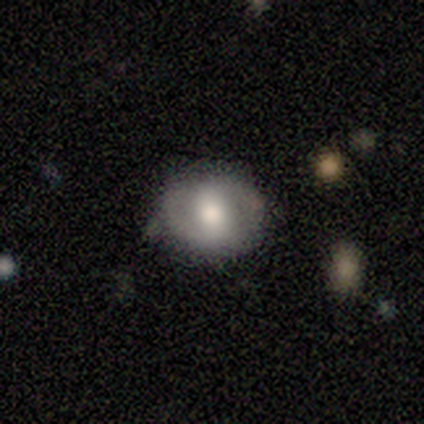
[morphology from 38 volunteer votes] Smooth or featured: featured or disk — 55% (smooth — 39%)
Edge-on disk: no — 95% (yes — 5%)
Bar: no — 40% (weak — 35%)
Spiral arms: yes — 70% (no — 30%)
Spiral winding: medium — 57% (tight — 43%)
Spiral arm count: 2 — 86% (can't tell — 14%)
Bulge size: moderate — 70% (large — 25%)
Merging: none — 72% (minor disturbance — 25%)